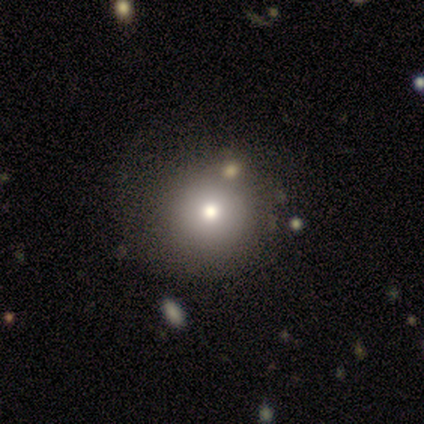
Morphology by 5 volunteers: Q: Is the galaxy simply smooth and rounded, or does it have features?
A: smooth — 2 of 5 (40%, tied with featured or disk).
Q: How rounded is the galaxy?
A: round — 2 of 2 (100%).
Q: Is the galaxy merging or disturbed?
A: none — 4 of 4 (100%).